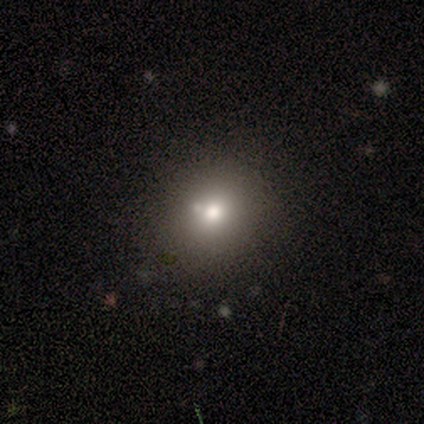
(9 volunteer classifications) Morphology: type=smooth (89%); roundness=round (75%); merging=none (75%).